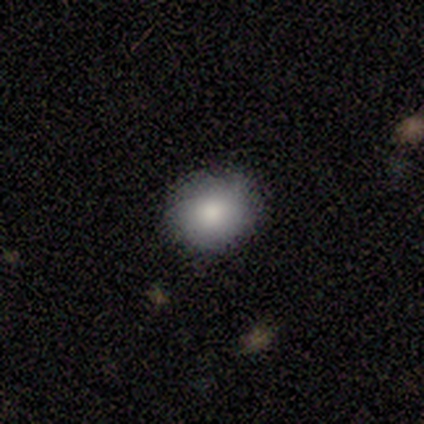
This is clearly a smooth galaxy (80%). How rounded: possibly round (50%, tied with in between). Merging: clearly none (100%).